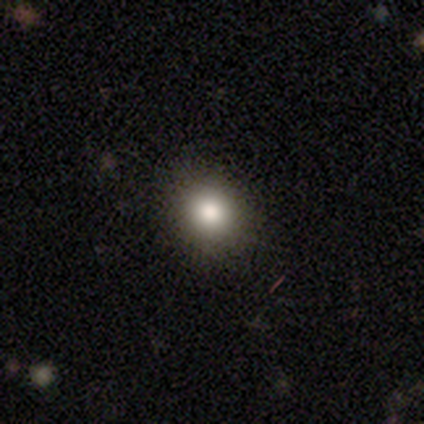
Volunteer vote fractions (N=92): This is clearly a smooth galaxy (80%). How rounded: likely round (78%). Merging: clearly none (89%).